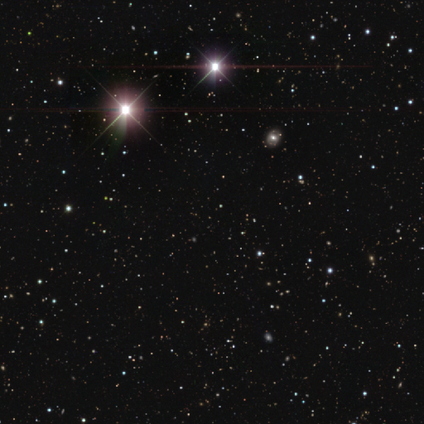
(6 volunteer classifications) Volunteers were most divided on "smooth or featured": star or artifact: 83%, smooth: 17%, featured or disk: 0%.